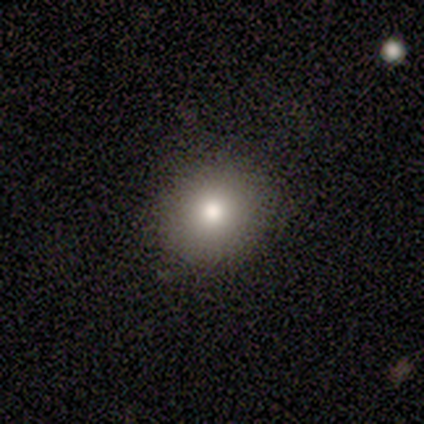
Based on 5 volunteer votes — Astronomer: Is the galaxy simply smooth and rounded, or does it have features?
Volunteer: smooth — 80%.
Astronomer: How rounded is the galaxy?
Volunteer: round — 100%.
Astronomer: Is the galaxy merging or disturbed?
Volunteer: none — 75%.